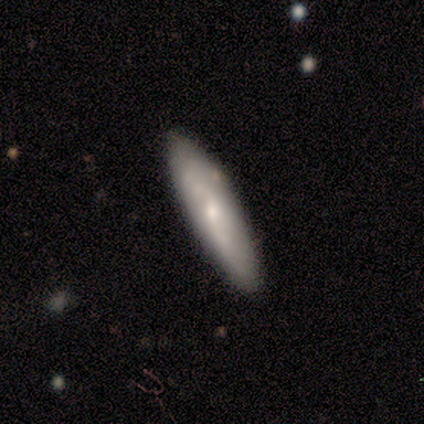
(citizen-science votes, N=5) Smooth or featured? 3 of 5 (60%) said featured or disk. Edge-on disk? 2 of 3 (67%) said no. Bar? 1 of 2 (50%, tied with no) said weak. Spiral arms? 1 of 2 (50%, tied with no) said yes. Spiral winding? 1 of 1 (100%) said medium. Spiral arm count? 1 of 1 (100%) said can't tell. Bulge size? 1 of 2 (50%, tied with small) said moderate. Merging? 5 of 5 (100%) said none.